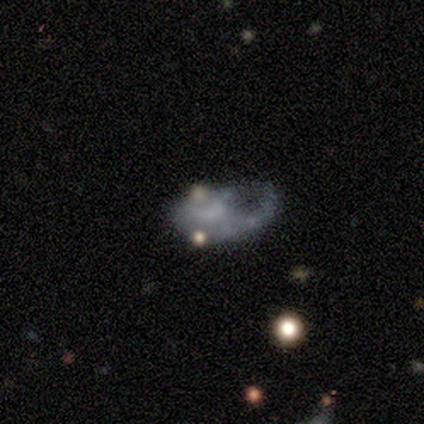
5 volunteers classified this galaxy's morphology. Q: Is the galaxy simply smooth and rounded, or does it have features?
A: star or artifact — 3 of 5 (60%).